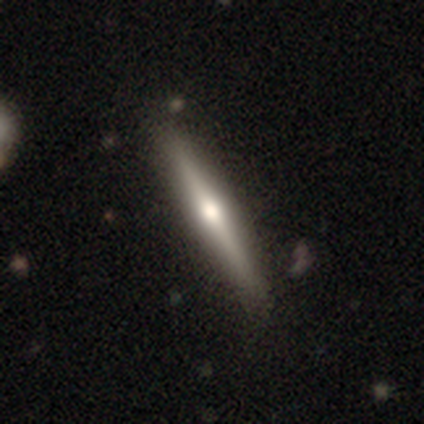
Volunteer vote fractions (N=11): Smooth or featured? featured or disk (73%)
Edge-on disk? yes (100%)
Edge-on bulge? rounded (100%)
Merging? none (100%)